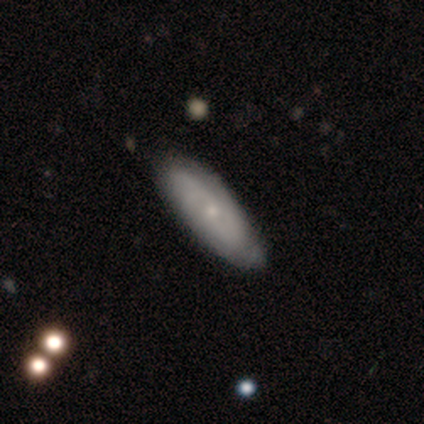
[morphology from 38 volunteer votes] Smooth or featured: featured or disk — 74% (smooth — 24%)
Edge-on disk: no — 86% (yes — 14%)
Bar: no — 75% (weak — 25%)
Spiral arms: yes — 83% (no — 17%)
Spiral winding: tight — 55% (medium — 30%)
Spiral arm count: can't tell — 40% (2 — 30%)
Bulge size: small — 88% (moderate — 8%)
Merging: none — 57% (minor disturbance — 14%)